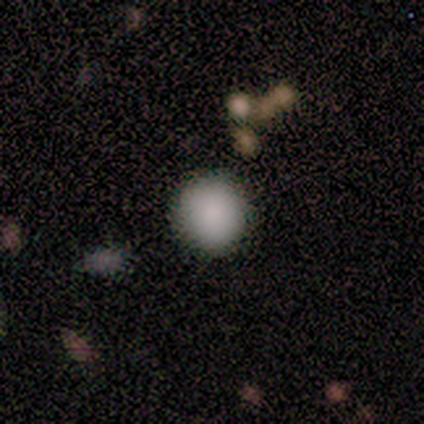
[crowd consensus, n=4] This is likely a smooth galaxy (75%). How rounded: clearly round (100%). Merging: clearly none (100%).